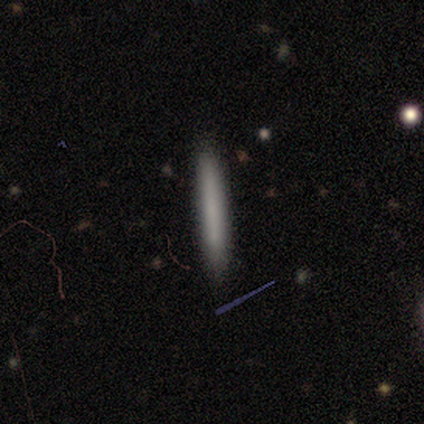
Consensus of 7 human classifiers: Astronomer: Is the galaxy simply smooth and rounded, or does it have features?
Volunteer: smooth — 100%.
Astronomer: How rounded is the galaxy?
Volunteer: cigar-shaped — 100%.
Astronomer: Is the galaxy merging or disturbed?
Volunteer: none — 100%.